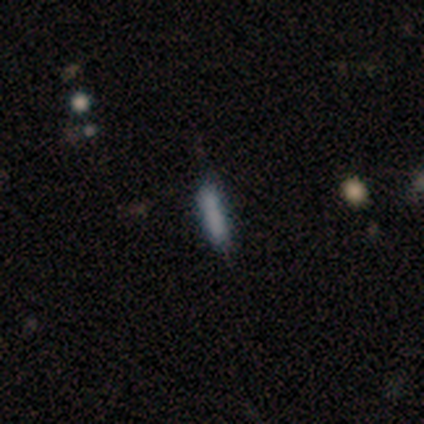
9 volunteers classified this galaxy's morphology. Smooth or featured? 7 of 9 (78%) said smooth. How rounded? 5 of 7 (71%) said cigar-shaped. Merging? 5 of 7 (71%) said none.